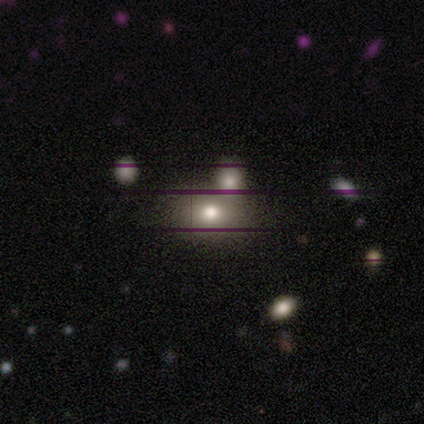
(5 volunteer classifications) smooth_or_featured: smooth (p=0.80) [alt: star or artifact p=0.20]
how_rounded: in between (p=0.75) [alt: round p=0.25]
merging: none (p=0.50) [alt: minor disturbance p=0.25]